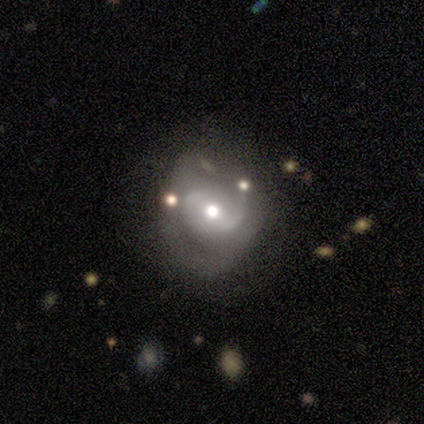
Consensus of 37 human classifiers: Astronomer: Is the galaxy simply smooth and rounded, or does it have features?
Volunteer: featured or disk — 76%.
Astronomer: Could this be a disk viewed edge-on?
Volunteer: no — 96%.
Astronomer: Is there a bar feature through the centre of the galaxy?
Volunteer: weak — 52%.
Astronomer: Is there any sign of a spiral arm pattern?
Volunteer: yes — 74%.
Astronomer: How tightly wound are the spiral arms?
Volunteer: medium — 45% (runner-up: loose, 35%).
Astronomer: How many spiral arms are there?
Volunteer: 2 — 45% (runner-up: can't tell, 30%).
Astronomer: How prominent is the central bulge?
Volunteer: moderate — 70%.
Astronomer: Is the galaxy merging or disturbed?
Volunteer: none — 60%.